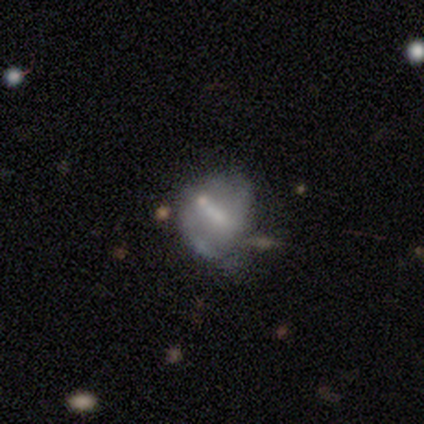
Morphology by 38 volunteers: Q: Smooth or featured?
A: featured or disk (55%); runner-up: smooth (32%)
Q: Edge-on disk?
A: no (100%)
Q: Bar?
A: strong (33%); tied with: weak (33%); no (33%)
Q: Spiral arms?
A: no (67%); runner-up: yes (33%)
Q: Bulge size?
A: moderate (38%); tied with: small (38%)
Q: Merging?
A: minor disturbance (30%); runner-up: none (12%)